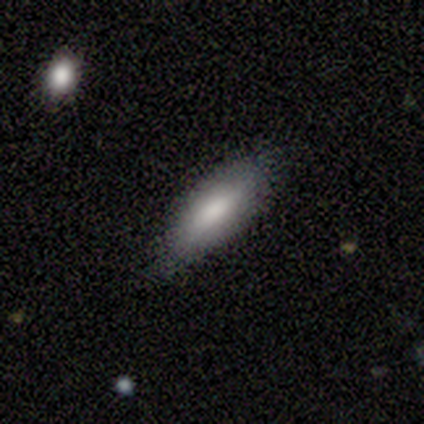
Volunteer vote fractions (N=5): smooth_or_featured: smooth (p=0.80) [alt: star or artifact p=0.20]
how_rounded: in between (p=0.75) [alt: cigar-shaped p=0.25]
merging: none (p=0.75) [alt: minor disturbance p=0.25]